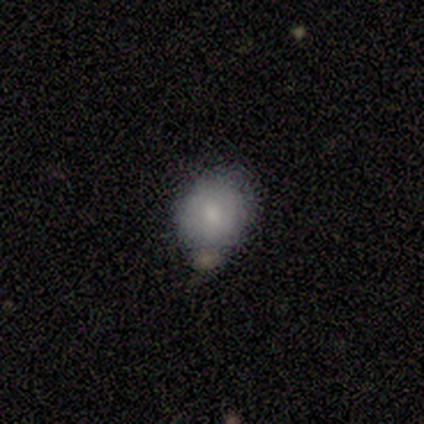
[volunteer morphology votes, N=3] A smooth galaxy with no disk features (100%) that is in between round and cigar-shaped (67%).

Vote fractions:
- Smooth or featured? smooth: 100% / featured or disk: 0% / star or artifact: 0%
- How rounded? in between: 67% / round: 33% / cigar-shaped: 0%
- Merging? minor disturbance: 67% / none: 33% / major disturbance: 0% / merger: 0%